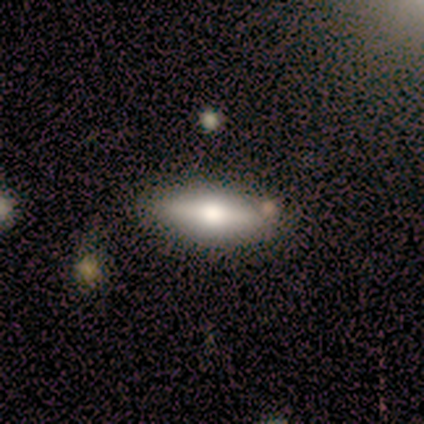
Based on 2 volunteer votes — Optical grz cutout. It shows a featured or disk galaxy (100%) viewed edge-on (50%, tied with no) with a rounded central bulge (100%). Merging: none (100%).